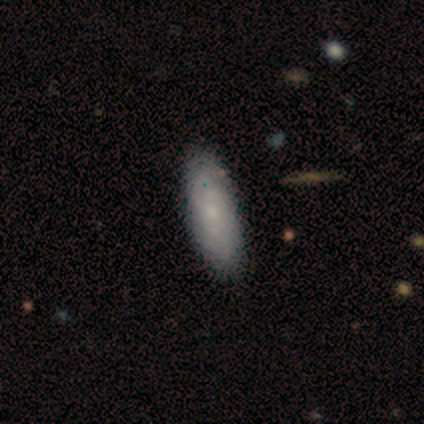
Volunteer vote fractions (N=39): Volunteers were most divided on "smooth or featured": smooth: 62%, featured or disk: 38%, star or artifact: 0%. More confident: how rounded — in between (62%); merging — none (54%).